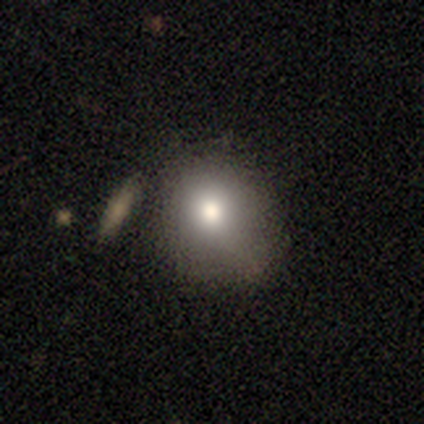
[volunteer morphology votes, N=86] This is likely a smooth galaxy (77%). How rounded: likely round (62%). Merging: possibly none (47%).